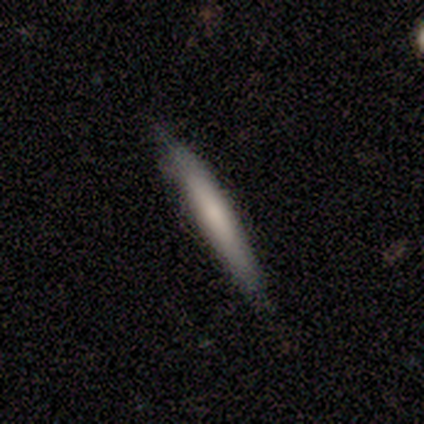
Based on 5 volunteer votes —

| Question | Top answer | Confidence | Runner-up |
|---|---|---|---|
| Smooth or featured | smooth | 60% | featured or disk (40%) |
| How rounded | cigar-shaped | 100% | — |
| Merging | none | 80% | minor disturbance (20%) |